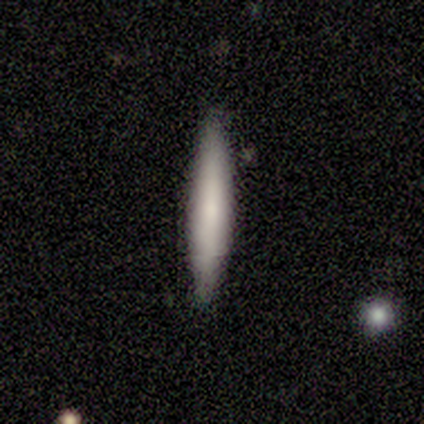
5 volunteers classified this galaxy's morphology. A smooth galaxy with no disk features (60%) that is cigar-shaped (100%).

Vote fractions:
- Smooth or featured? smooth: 60% / featured or disk: 40% / star or artifact: 0%
- How rounded? cigar-shaped: 100% / round: 0% / in between: 0%
- Merging? none: 100% / minor disturbance: 0% / major disturbance: 0% / merger: 0%